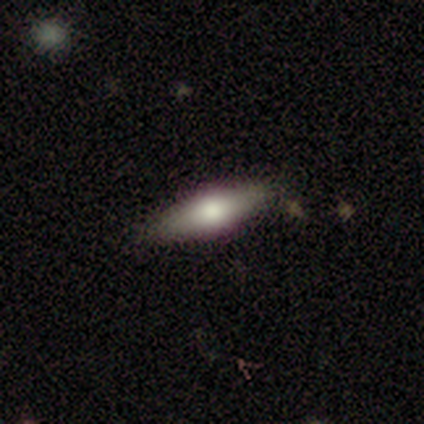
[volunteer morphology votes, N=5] Smooth or featured? smooth (60%)
How rounded? in between (67%)
Merging? none (60%)